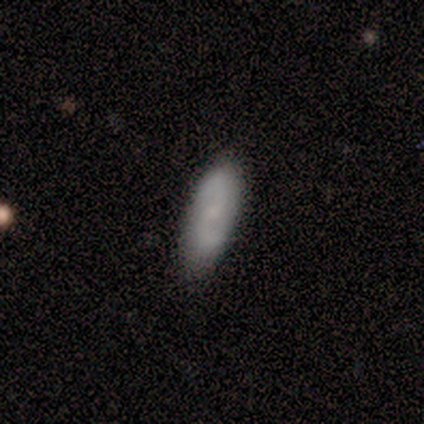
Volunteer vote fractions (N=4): This is clearly a featured or disk galaxy (100%). It is clearly not viewed edge-on (100%). Bar: possibly weak (50%). Spiral arm pattern: clearly yes (100%). Spiral arm count: clearly 2 (100%). Spiral winding: possibly loose (50%). Central bulge: possibly small (50%, tied with none). Merging: clearly none (100%).